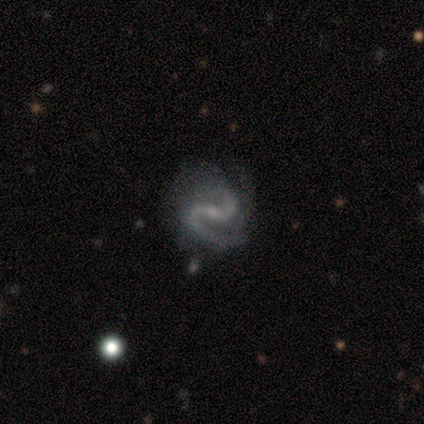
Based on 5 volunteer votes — Morphology: type=featured or disk (100%); edge-on=no (100%); bar=strong (40%, tied with weak); spiral arms=yes (100%); winding=medium (60%); arm count=2 (100%); bulge=small (100%); merging=none (80%).